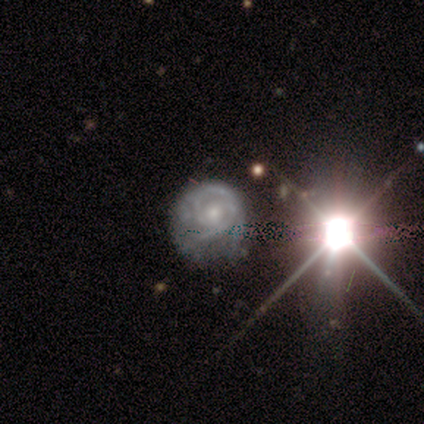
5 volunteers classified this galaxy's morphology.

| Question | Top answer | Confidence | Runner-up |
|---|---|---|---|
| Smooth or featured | featured or disk | 80% | star or artifact (20%) |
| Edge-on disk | no | 100% | — |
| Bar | no | 75% | weak (25%) |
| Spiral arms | yes | 100% | — |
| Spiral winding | tight | 100% | — |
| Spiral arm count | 2 | 75% | can't tell (25%) |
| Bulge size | moderate | 50% | tied: small (50%) |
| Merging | minor disturbance | 50% | none (25%) |